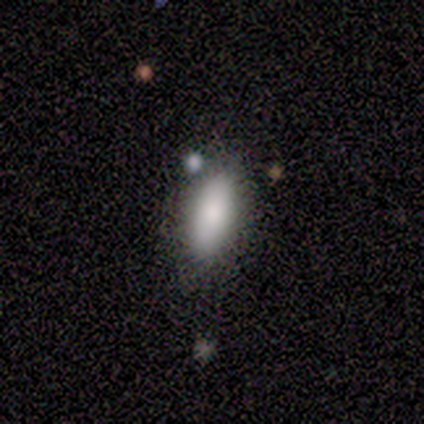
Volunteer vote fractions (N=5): smooth-or-featured: smooth: 100% | featured or disk: 0% | star or artifact: 0%
  how-rounded: in between: 80% | cigar-shaped: 20% | round: 0%
  merging: none: 60% | minor disturbance: 20% | major disturbance: 20% | merger: 0%